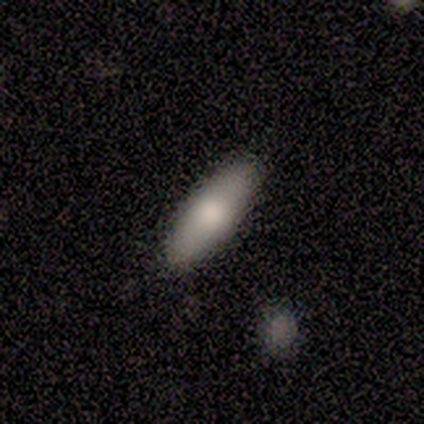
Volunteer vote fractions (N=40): This appears to be a smooth galaxy with no disk features (80%) that is in between round and cigar-shaped (56%). Merging: none (71%).